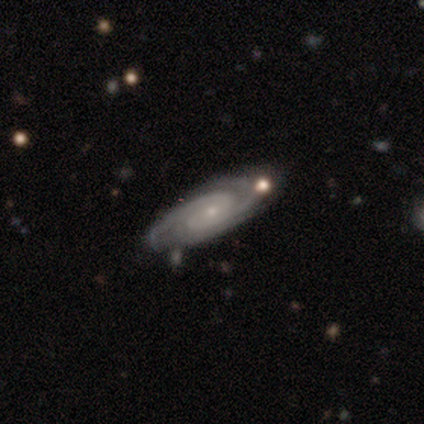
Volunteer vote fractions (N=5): This is clearly a featured or disk galaxy (100%). It is clearly not viewed edge-on (80%). Bar: likely no (75%). Spiral arm pattern: clearly yes (100%). Spiral arm count: likely 2 (75%). Spiral winding: likely tight (75%). Central bulge: clearly small (100%). Merging: marginally none (40%, tied with minor disturbance).